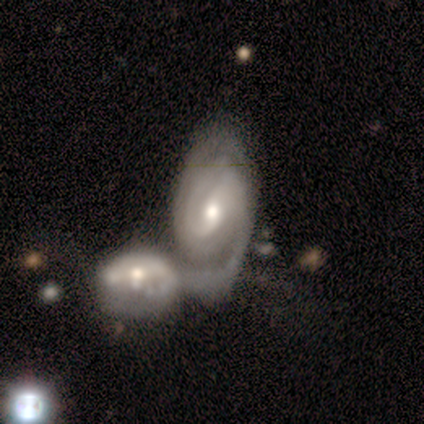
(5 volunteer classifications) Morphology: type=featured or disk (80%); edge-on=no (100%); bar=weak (50%, tied with no); spiral arms=yes (100%); winding=tight (50%); arm count=2 (75%); bulge=small (75%); merging=merger (100%).